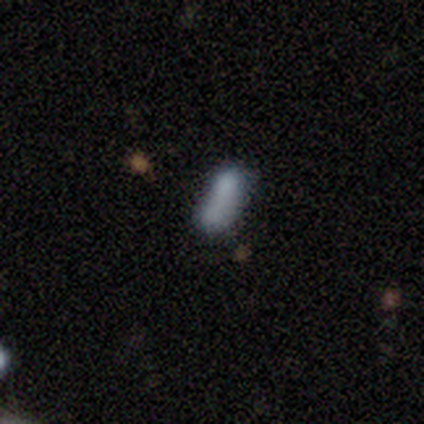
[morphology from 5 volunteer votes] Volunteers were most divided on "how rounded": in between: 67%, cigar-shaped: 33%, round: 0%. More confident: merging — merger (100%); smooth or featured — smooth (60%).